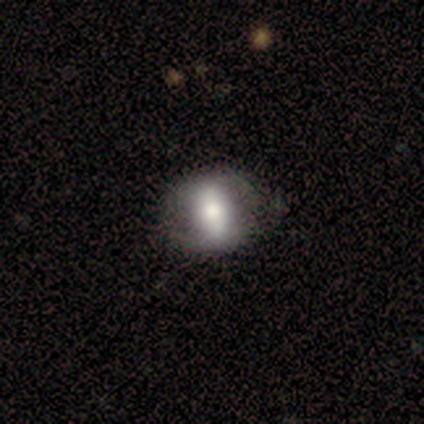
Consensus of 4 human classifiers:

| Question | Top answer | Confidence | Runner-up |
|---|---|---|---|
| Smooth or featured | featured or disk | 50% | smooth (25%) |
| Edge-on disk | no | 100% | — |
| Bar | strong | 50% | tied: weak (50%) |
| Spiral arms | yes | 100% | — |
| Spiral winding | medium | 50% | tied: loose (50%) |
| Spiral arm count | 2 | 100% | — |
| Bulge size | dominant | 50% | tied: large (50%) |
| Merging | none | 67% | major disturbance (33%) |